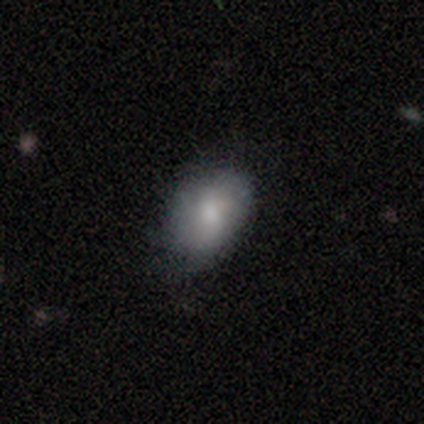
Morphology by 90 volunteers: A smooth galaxy with no disk features (70%) that is in between round and cigar-shaped (87%).

Vote fractions:
- Smooth or featured? smooth: 70% / featured or disk: 20% / star or artifact: 10%
- How rounded? in between: 87% / round: 13% / cigar-shaped: 0%
- Merging? none: 62% / minor disturbance: 30% / major disturbance: 7% / merger: 1%